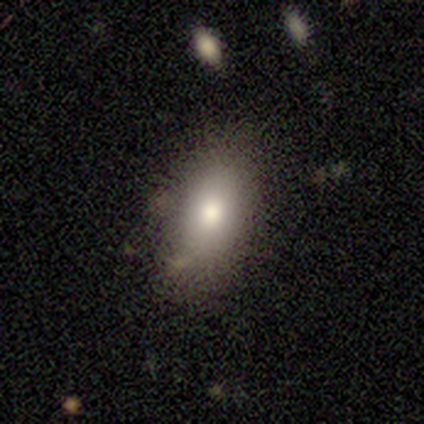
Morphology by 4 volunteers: smooth_or_featured: smooth (p=1.00)
how_rounded: in between (p=1.00)
merging: none (p=1.00)